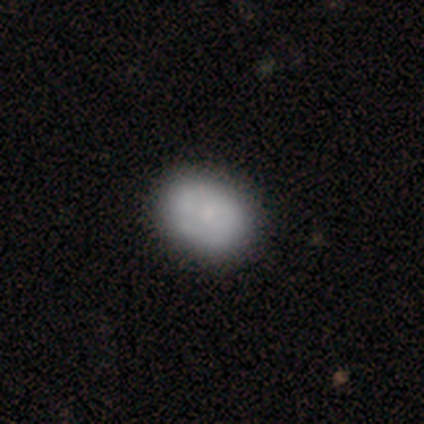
Morphology: type=smooth (65%); roundness=in between (54%); merging=none (53%).